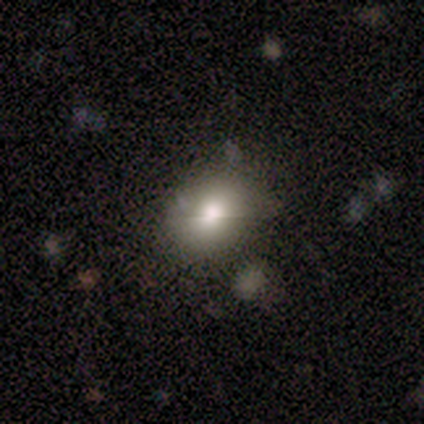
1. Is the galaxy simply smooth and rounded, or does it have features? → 40% smooth (tied), 40% star or artifact (tied), 20% featured or disk.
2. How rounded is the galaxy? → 50% round (tied), 50% in between (tied), 0% cigar-shaped.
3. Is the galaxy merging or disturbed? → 100% none, 0% minor disturbance, 0% major disturbance, 0% merger.